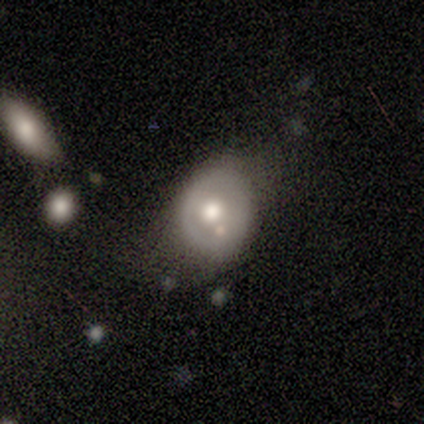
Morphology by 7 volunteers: This appears to be a smooth galaxy with no disk features (57%) that is in between round and cigar-shaped (75%). Merging: minor disturbance (67%).